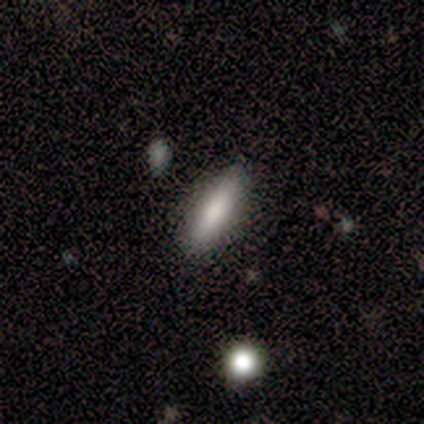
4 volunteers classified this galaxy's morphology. type=smooth (100%); roundness=cigar-shaped (75%); merging=none (100%).